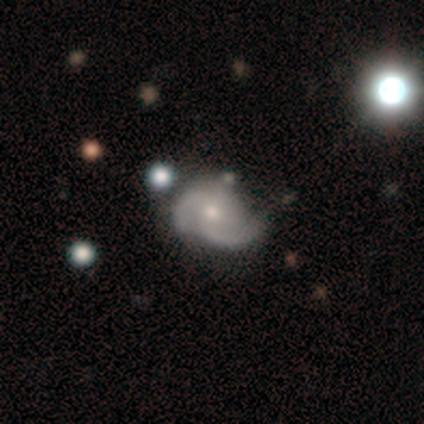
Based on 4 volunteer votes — Overall: featured or disk (100%). Edge-on disk: no (100%). Bar: weak (75%). Spiral arms: yes (100%). Spiral arm count: 2 (75%). Spiral winding: medium (100%). Bulge size: small (75%). Merging: major disturbance (50%; none 25%).